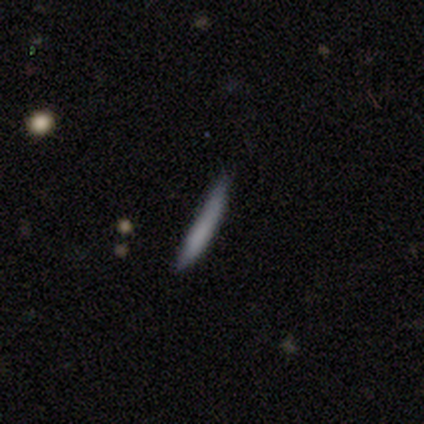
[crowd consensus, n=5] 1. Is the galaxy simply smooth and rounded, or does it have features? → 80% smooth, 20% featured or disk, 0% star or artifact.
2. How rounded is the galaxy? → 100% cigar-shaped, 0% round, 0% in between.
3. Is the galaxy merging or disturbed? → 60% none, 20% minor disturbance, 20% major disturbance, 0% merger.